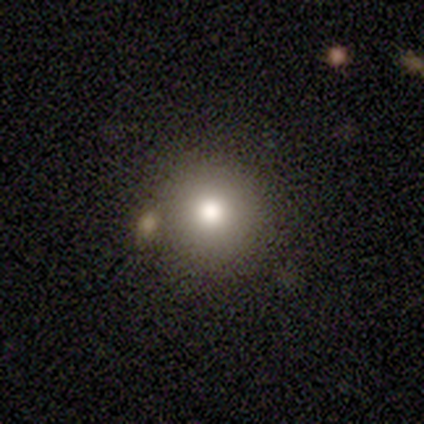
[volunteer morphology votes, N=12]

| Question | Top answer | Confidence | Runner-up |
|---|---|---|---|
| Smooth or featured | smooth | 75% | star or artifact (25%) |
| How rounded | round | 89% | in between (11%) |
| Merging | none | 89% | minor disturbance (11%) |